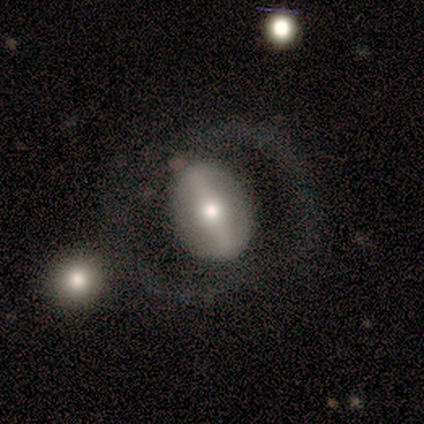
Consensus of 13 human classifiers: Smooth or featured? 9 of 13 (69%) said featured or disk. Edge-on disk? 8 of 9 (89%) said no. Bar? 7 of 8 (88%) said strong. Spiral arms? 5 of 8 (62%) said yes. Spiral winding? 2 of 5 (40%, tied with loose) said medium. Spiral arm count? 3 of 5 (60%) said 2. Bulge size? 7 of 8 (88%) said moderate. Merging? 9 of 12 (75%) said none.